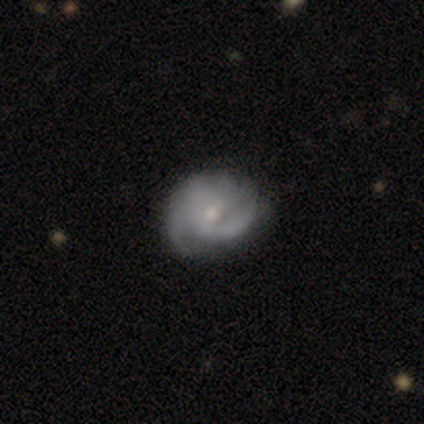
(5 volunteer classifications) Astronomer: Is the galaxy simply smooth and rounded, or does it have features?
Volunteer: featured or disk — 100%.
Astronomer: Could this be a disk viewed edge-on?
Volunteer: no — 100%.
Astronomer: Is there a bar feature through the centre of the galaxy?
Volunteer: weak — 60%.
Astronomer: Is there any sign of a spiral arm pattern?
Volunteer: yes — 100%.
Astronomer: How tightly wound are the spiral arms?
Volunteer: tight — 60%.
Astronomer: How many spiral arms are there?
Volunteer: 2 — 100%.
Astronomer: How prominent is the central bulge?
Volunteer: small — 60% (runner-up: moderate, 40%).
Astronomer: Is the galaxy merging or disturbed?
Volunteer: none — 100%.